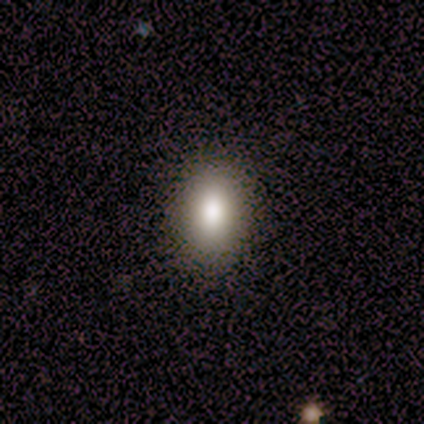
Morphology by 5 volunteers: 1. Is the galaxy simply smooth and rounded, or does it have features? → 80% smooth, 20% featured or disk, 0% star or artifact.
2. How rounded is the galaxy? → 75% in between, 25% round, 0% cigar-shaped.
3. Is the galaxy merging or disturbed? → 80% none, 20% major disturbance, 0% minor disturbance, 0% merger.